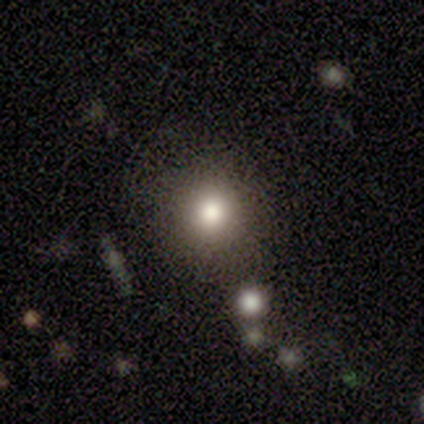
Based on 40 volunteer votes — This appears to be a smooth galaxy with no disk features (65%) that is round (92%). Merging: none (84%).